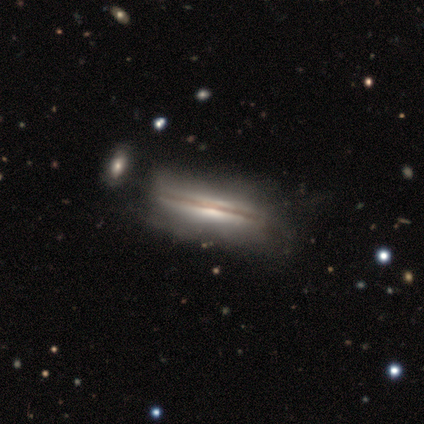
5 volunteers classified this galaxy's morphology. smooth_or_featured: featured or disk (p=1.00)
disk_edge_on: yes (p=0.60) [alt: no p=0.40]
edge_on_bulge: boxy (p=0.67) [alt: none p=0.33]
merging: none (p=0.40) [tied with: minor disturbance p=0.40]